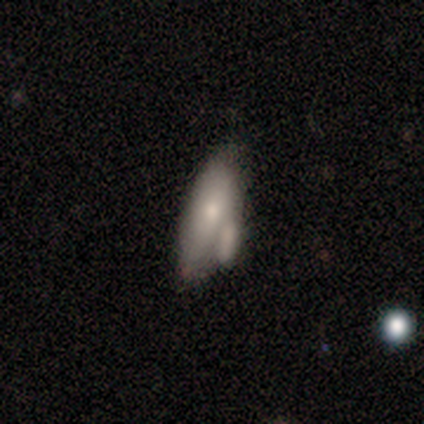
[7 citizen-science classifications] Smooth or featured: smooth — 71% (featured or disk — 29%)
How rounded: in between — 60% (cigar-shaped — 40%)
Merging: minor disturbance — 43% (tied with merger — 43%)